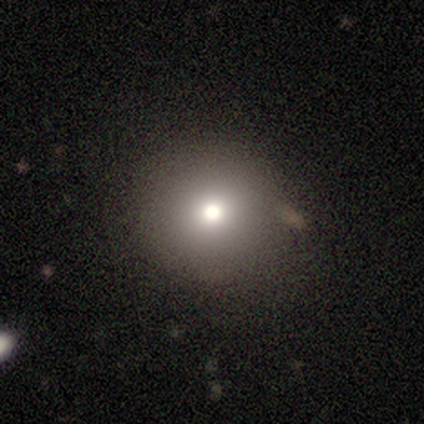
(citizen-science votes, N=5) smooth 60%, star or artifact 40%, featured or disk 0%. Down the decision tree: how rounded — round (100%); merging — none (100%).